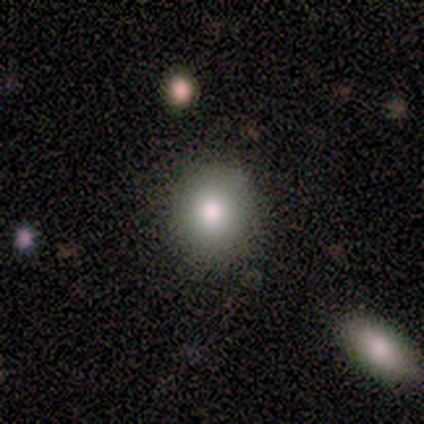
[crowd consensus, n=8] Smooth or featured: smooth — 100%
How rounded: round — 100%
Merging: none — 88% (minor disturbance — 12%)